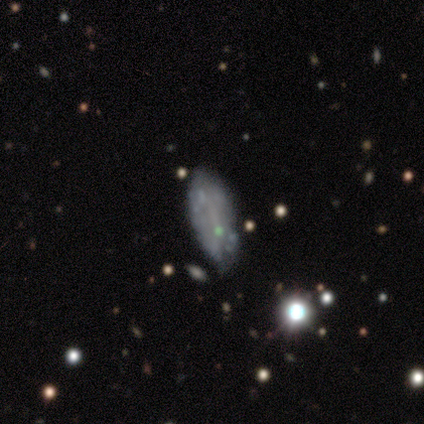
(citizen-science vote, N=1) This appears to be a featured or disk galaxy (100%) with no bar (100%), no spiral arms (100%) and no central bulge (100%). Merging: none (100%).